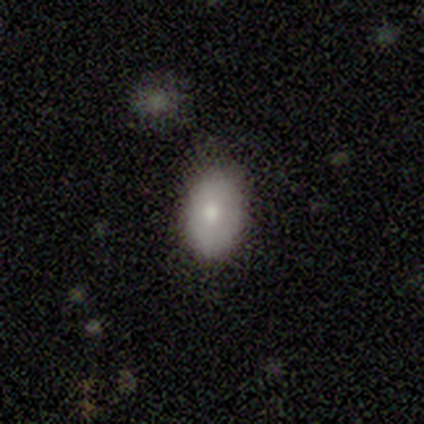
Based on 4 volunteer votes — A smooth galaxy with no disk features (100%) that is in between round and cigar-shaped (100%). Merging: none (50%, tied with minor disturbance).